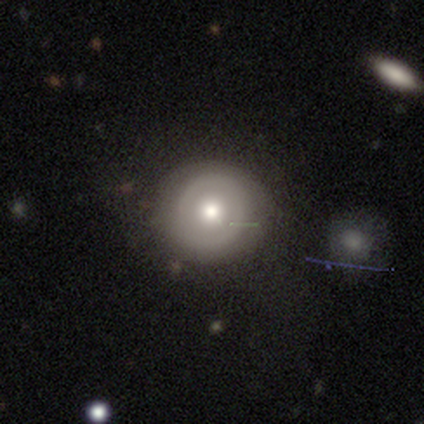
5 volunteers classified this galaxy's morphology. type=featured or disk (80%); edge-on=no (100%); bar=no (100%); spiral arms=no (100%); bulge=moderate (75%); merging=minor disturbance (50%).